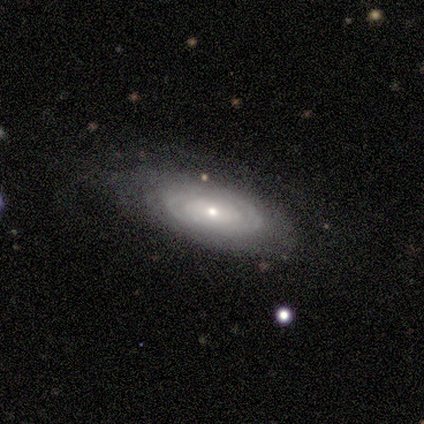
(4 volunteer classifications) smooth_or_featured: smooth (p=0.50) [tied with: featured or disk p=0.50]
how_rounded: in between (p=1.00)
merging: major disturbance (p=0.50) [alt: none p=0.25]